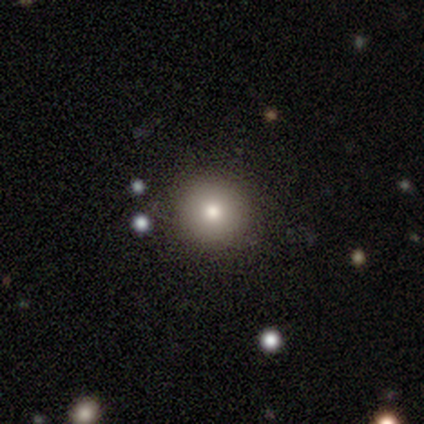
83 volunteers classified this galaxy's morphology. This appears to be a smooth galaxy with no disk features (72%) that is round (97%). Merging: none (86%).